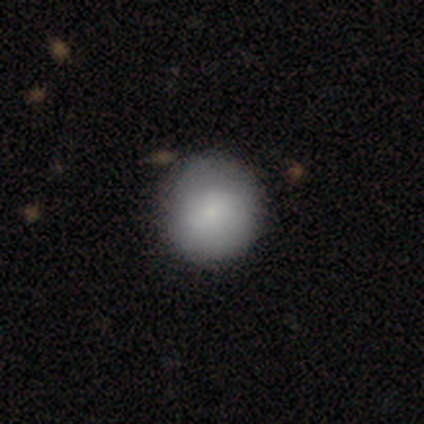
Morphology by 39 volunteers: Smooth or featured: smooth — 87% (featured or disk — 10%)
How rounded: round — 94% (in between — 6%)
Merging: none — 68% (major disturbance — 3%)